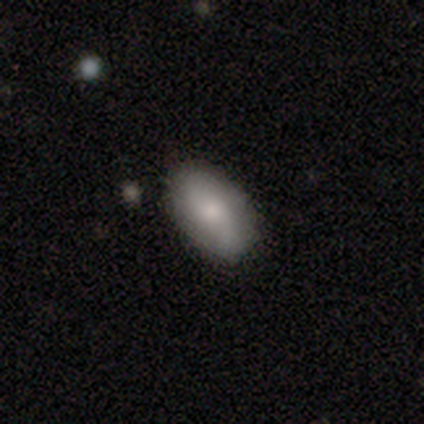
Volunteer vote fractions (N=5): Morphology: type=smooth (60%); roundness=in between (100%); merging=minor disturbance (60%).